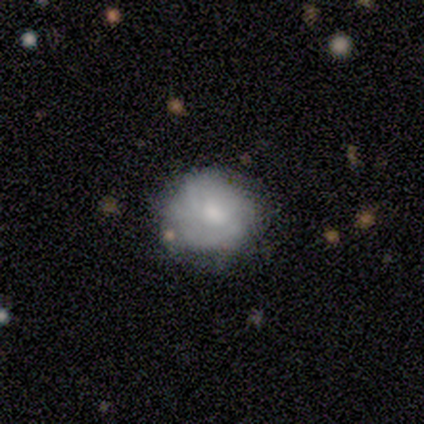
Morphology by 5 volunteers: This is clearly a featured or disk galaxy (80%). It is clearly not viewed edge-on (100%). Bar: likely no (75%). Spiral arm pattern: possibly yes (50%, tied with no). Spiral arm count: possibly more than 4 (50%, tied with can't tell). Spiral winding: possibly tight (50%, tied with medium). Central bulge: likely small (75%). Merging: likely none (75%).